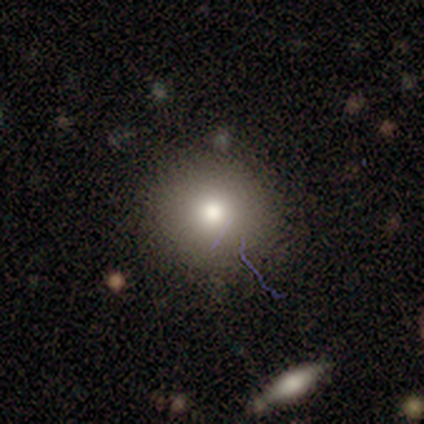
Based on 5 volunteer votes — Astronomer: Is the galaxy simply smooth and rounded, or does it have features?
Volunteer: smooth — 60%.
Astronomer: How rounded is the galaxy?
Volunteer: round — 100%.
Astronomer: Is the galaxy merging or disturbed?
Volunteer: none — 100%.